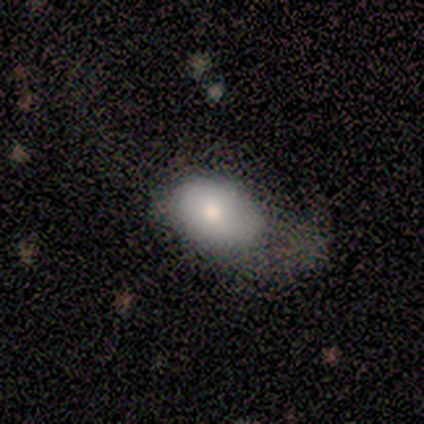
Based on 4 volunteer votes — A smooth galaxy with no disk features (75%) that is in between round and cigar-shaped (67%). Merging: major disturbance (50%).